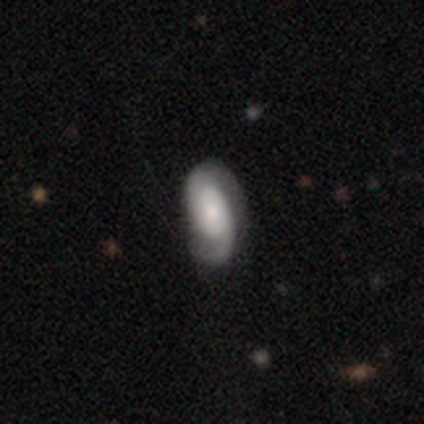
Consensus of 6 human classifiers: Morphology: type=featured or disk (83%); edge-on=no (100%); bar=no (80%); spiral arms=yes (100%); winding=tight (60%); arm count=2 (80%); bulge=moderate (60%); merging=none (50%).